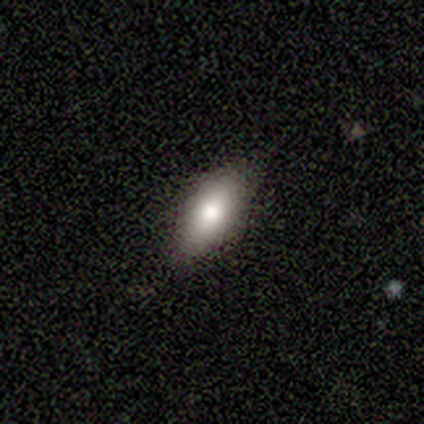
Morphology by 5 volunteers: smooth_or_featured: smooth (p=1.00)
how_rounded: in between (p=0.80) [alt: cigar-shaped p=0.20]
merging: none (p=1.00)